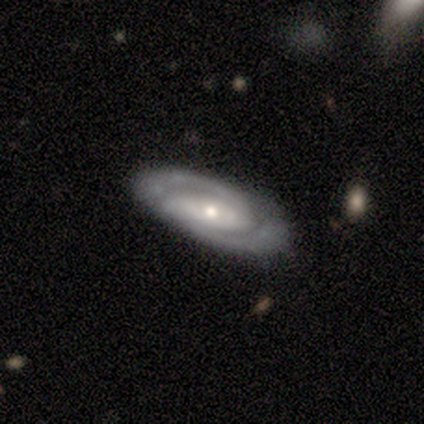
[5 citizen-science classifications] Smooth or featured? featured or disk (80%)
Edge-on disk? no (100%)
Bar? strong (50%, tied with no)
Spiral arms? yes (100%)
Spiral winding? medium (75%)
Spiral arm count? 2 (100%)
Bulge size? small (75%)
Merging? none (100%)